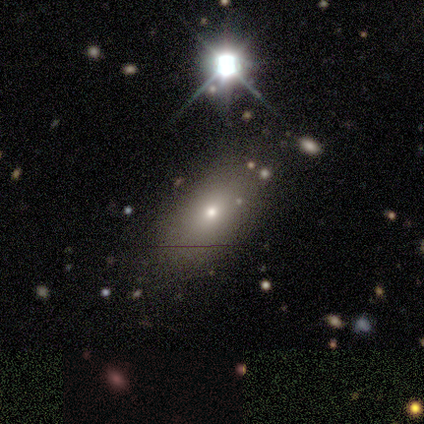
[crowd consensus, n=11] Smooth or featured?
  - smooth: 45% *
  - featured or disk: 27%
  - star or artifact: 27%
How rounded?
  - in between: 100% *
  - round: 0%
  - cigar-shaped: 0%
Merging?
  - none: 88% *
  - minor disturbance: 12%
  - major disturbance: 0%
  - merger: 0%